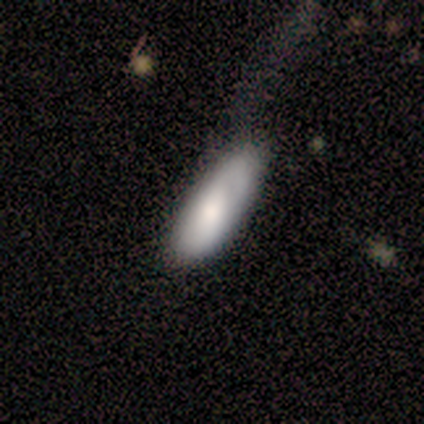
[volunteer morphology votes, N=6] Smooth or featured? 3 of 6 (50%) said smooth. How rounded? 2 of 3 (67%) said in between. Merging? 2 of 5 (40%, tied with major disturbance) said minor disturbance.